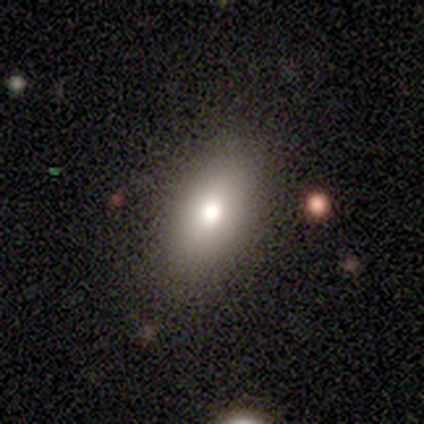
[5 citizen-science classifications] Volunteers were most divided on "merging": none: 75%, major disturbance: 25%, minor disturbance: 0%, merger: 0%. More confident: how rounded — in between (100%); smooth or featured — smooth (80%).